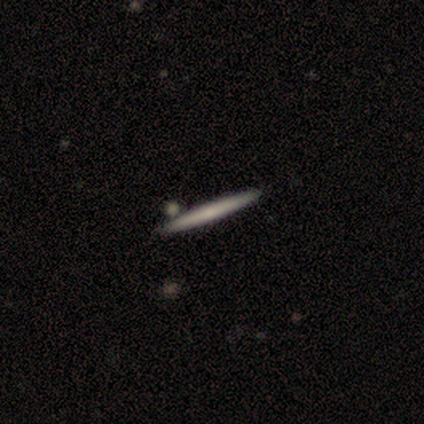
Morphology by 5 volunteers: Smooth or featured?
  - smooth: 60% *
  - featured or disk: 40%
  - star or artifact: 0%
How rounded?
  - cigar-shaped: 100% *
  - round: 0%
  - in between: 0%
Merging?
  - none: 80% *
  - minor disturbance: 20%
  - major disturbance: 0%
  - merger: 0%